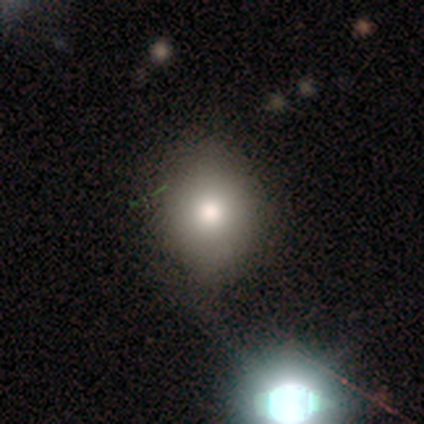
A smooth galaxy with no disk features (69%) that is round (59%).

Vote fractions:
- Smooth or featured? smooth: 69% / featured or disk: 18% / star or artifact: 13%
- How rounded? round: 59% / in between: 41% / cigar-shaped: 0%
- Merging? none: 79% / minor disturbance: 15% / major disturbance: 3% / merger: 3%